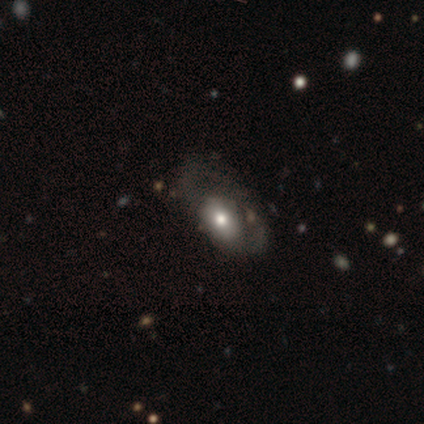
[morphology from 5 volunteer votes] Volunteers were most divided on "merging" (2-way tie): none: 40%, major disturbance: 40%, minor disturbance: 20%, merger: 0%. More confident: how rounded — in between (100%); smooth or featured — smooth (60%).